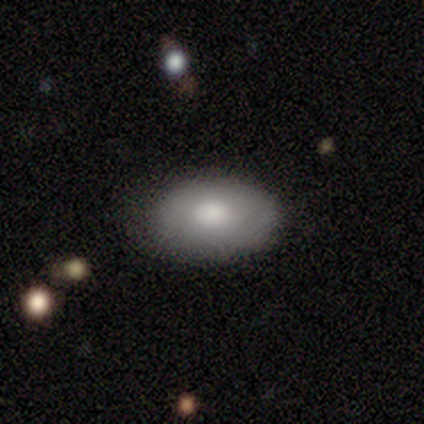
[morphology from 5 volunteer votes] Smooth or featured?
  - smooth: 60% *
  - featured or disk: 40%
  - star or artifact: 0%
How rounded?
  - in between: 100% *
  - round: 0%
  - cigar-shaped: 0%
Merging?
  - none: 100% *
  - minor disturbance: 0%
  - major disturbance: 0%
  - merger: 0%